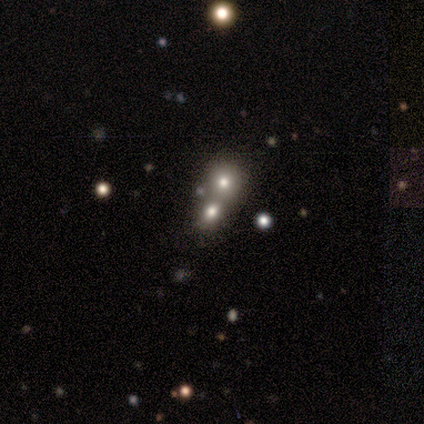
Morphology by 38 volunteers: Volunteers were most divided on "smooth or featured": smooth: 50%, star or artifact: 37%, featured or disk: 13%. More confident: how rounded — round (63%); merging — merger (58%).